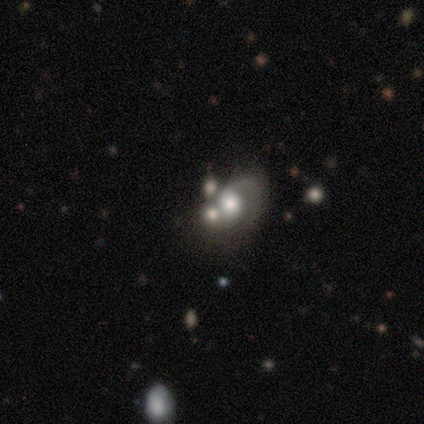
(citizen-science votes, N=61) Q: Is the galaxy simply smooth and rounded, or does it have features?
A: featured or disk — 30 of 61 (49%).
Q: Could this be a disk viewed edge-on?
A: no — 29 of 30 (97%).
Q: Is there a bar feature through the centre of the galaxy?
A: no — 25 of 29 (86%).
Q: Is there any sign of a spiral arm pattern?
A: yes — 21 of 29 (72%).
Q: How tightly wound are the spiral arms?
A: medium — 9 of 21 (43%).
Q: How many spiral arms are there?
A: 1 — 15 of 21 (71%).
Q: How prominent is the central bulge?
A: large — 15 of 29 (52%).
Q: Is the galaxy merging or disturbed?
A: merger — 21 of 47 (45%).